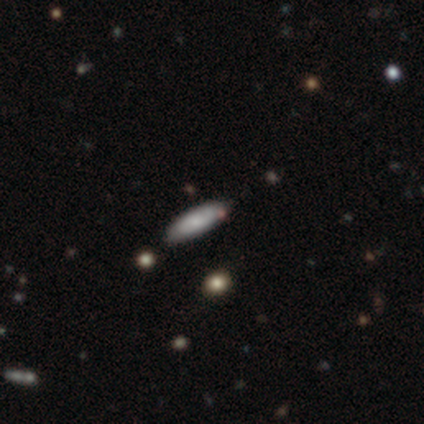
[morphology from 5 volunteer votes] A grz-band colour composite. It shows a smooth galaxy with no disk features (80%) that is in between round and cigar-shaped (50%, tied with cigar-shaped). Merging: none (100%).